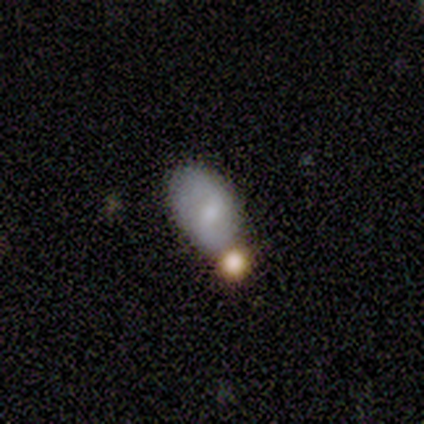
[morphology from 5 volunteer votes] Smooth or featured? smooth (40%, tied with featured or disk)
How rounded? in between (100%)
Merging? none (50%, tied with minor disturbance)